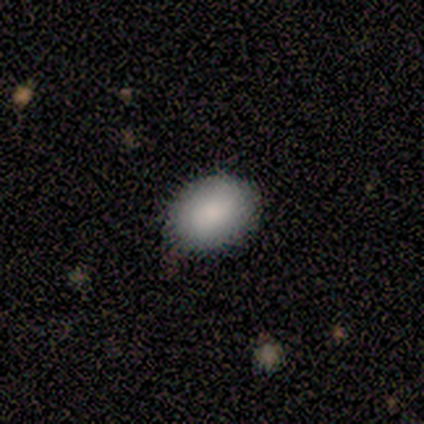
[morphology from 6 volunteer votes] A smooth galaxy with no disk features (83%) that is in between round and cigar-shaped (60%).

Vote fractions:
- Smooth or featured? smooth: 83% / star or artifact: 17% / featured or disk: 0%
- How rounded? in between: 60% / round: 40% / cigar-shaped: 0%
- Merging? none: 100% / minor disturbance: 0% / major disturbance: 0% / merger: 0%